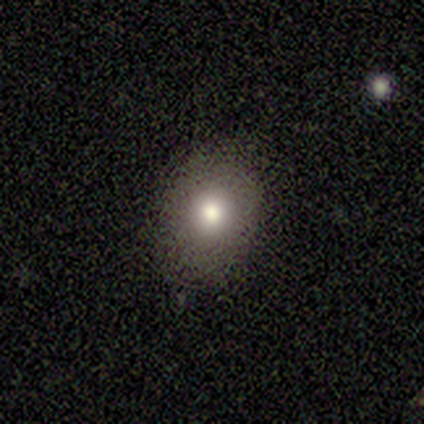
This appears to be a smooth galaxy with no disk features (100%) that is in between round and cigar-shaped (100%). Merging: none (80%).